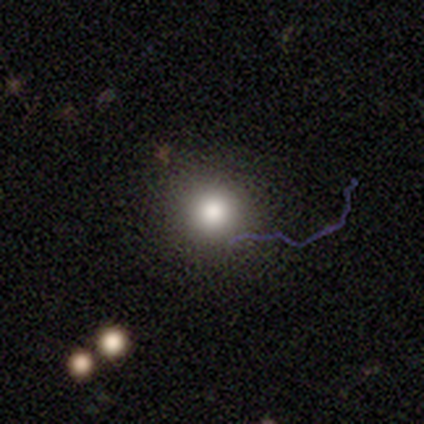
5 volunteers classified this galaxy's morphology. smooth_or_featured: smooth (p=1.00)
how_rounded: round (p=1.00)
merging: none (p=0.80) [alt: minor disturbance p=0.20]